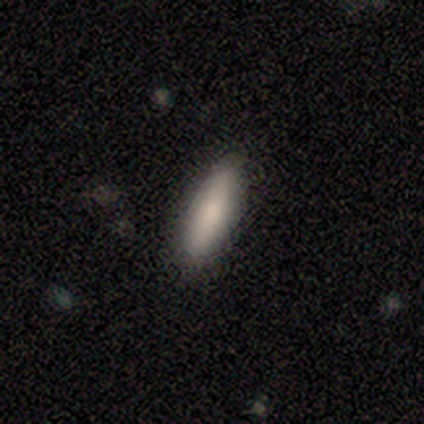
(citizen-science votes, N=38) Morphology: type=smooth (89%); roundness=cigar-shaped (56%); merging=none (97%).